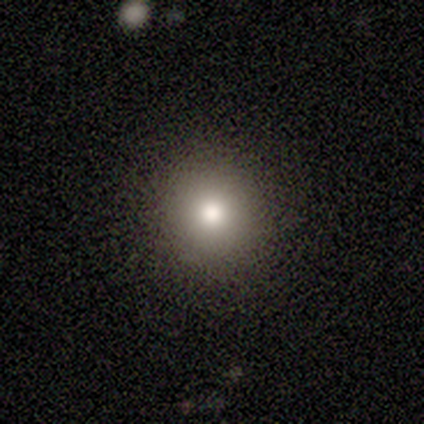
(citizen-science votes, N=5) This appears to be a smooth galaxy with no disk features (100%) that is round (80%). Merging: none (80%).